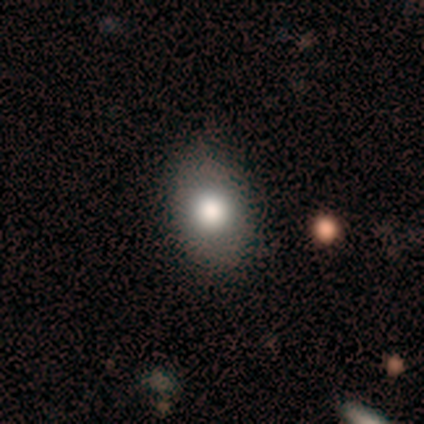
This is likely a smooth galaxy (71%). How rounded: clearly in between (100%). Merging: clearly none (86%).